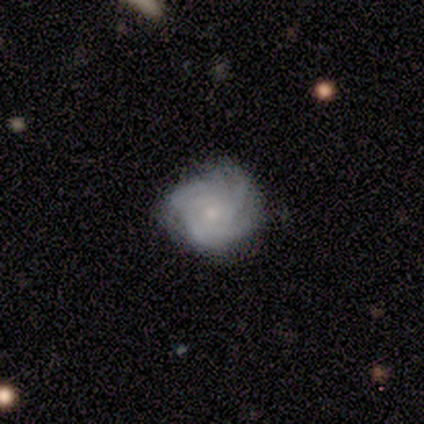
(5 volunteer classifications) Morphology: type=featured or disk (80%); edge-on=no (100%); bar=no (100%); spiral arms=yes (100%); winding=tight (100%); arm count=3 (50%, tied with can't tell); bulge=moderate (50%, tied with small); merging=none (60%).